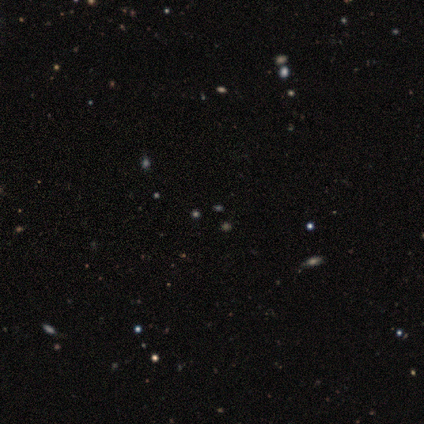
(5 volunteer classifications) Smooth or featured? star or artifact (100%)